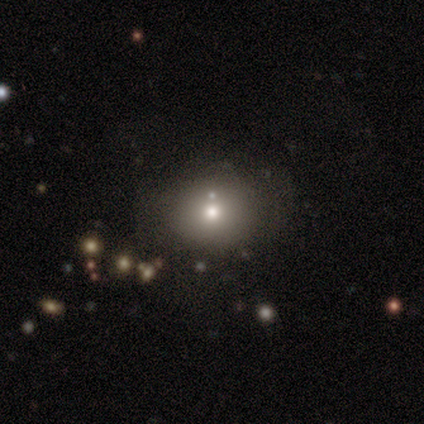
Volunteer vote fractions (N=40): This is likely a smooth galaxy (70%). How rounded: likely round (68%). Merging: likely none (72%).